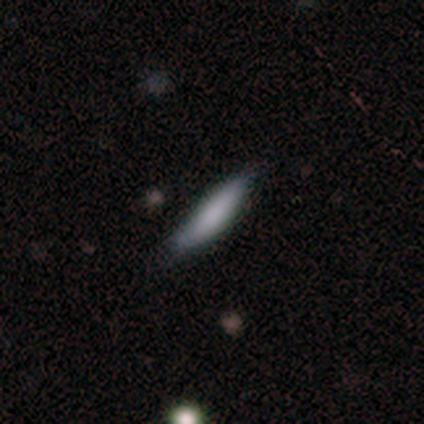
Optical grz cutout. It shows a smooth galaxy with no disk features (40%, tied with featured or disk) that is in between round and cigar-shaped (100%). Merging: none (50%, tied with minor disturbance).